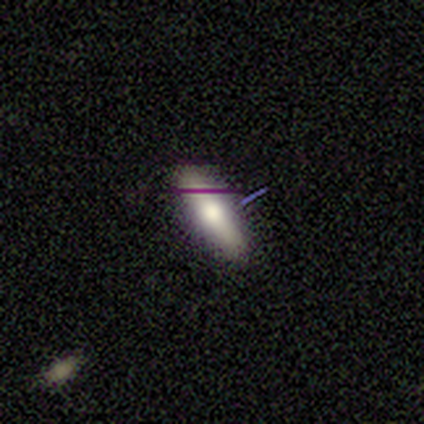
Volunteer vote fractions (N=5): This is likely a smooth galaxy (60%). How rounded: likely in between (67%). Merging: clearly none (100%).